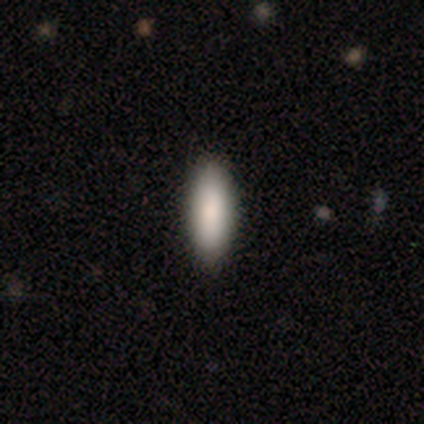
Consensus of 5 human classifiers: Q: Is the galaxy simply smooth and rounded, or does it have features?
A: star or artifact — 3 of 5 (60%).